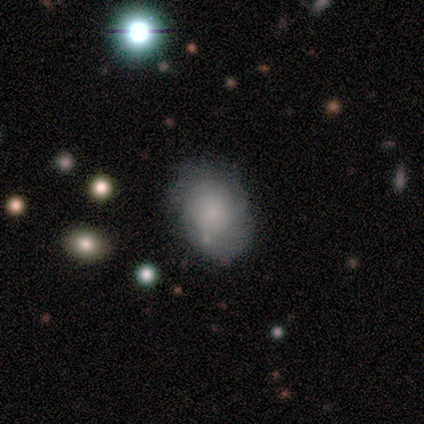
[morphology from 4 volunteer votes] Overall: smooth (100%). How rounded: in between (75%). Merging: none (75%).